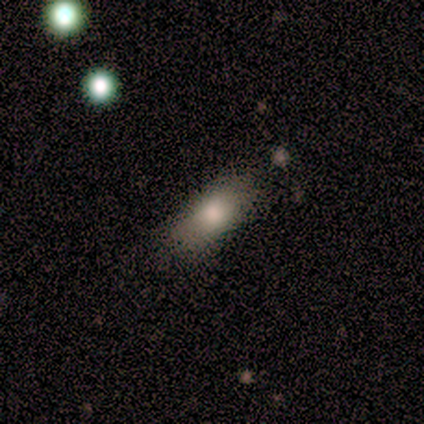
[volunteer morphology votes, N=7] A smooth galaxy with no disk features (71%) that is in between round and cigar-shaped (60%). Merging: none (100%).